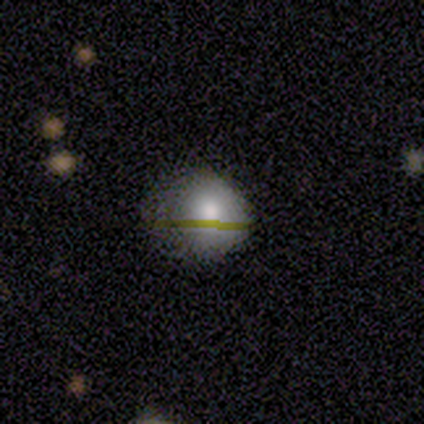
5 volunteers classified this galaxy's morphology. Smooth or featured: smooth — 40% (tied with featured or disk — 40%)
How rounded: round — 100%
Merging: none — 75% (minor disturbance — 25%)